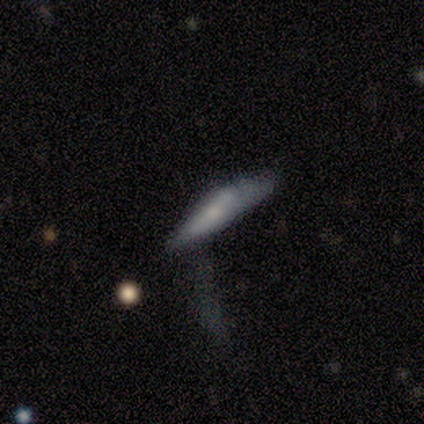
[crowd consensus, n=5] smooth 100%, featured or disk 0%, star or artifact 0%. Down the decision tree: how rounded — cigar-shaped (100%); merging — none (80%).